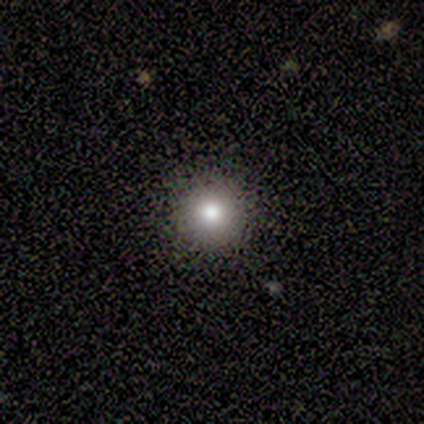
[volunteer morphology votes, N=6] type=smooth (50%); roundness=round (100%); merging=none (100%).